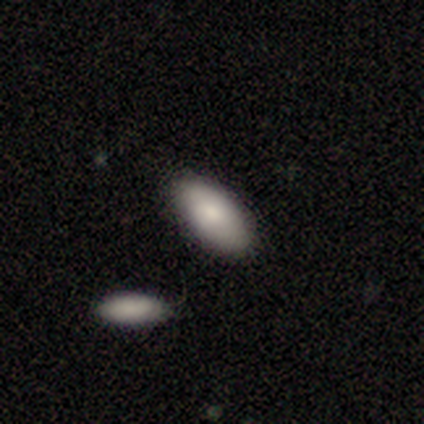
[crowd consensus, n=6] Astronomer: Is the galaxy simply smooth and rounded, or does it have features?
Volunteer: smooth — 83%.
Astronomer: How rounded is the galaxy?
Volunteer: in between — 100%.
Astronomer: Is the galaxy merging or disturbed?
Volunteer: none — 83%.